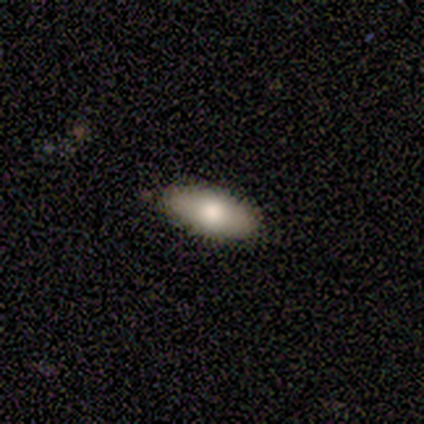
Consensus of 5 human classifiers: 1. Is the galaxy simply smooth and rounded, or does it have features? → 60% smooth, 40% featured or disk, 0% star or artifact.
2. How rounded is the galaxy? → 67% in between, 33% cigar-shaped, 0% round.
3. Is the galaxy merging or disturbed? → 80% none, 20% minor disturbance, 0% major disturbance, 0% merger.